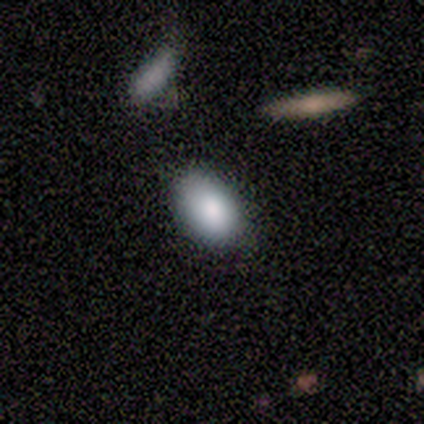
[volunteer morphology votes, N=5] smooth 100%, featured or disk 0%, star or artifact 0%. Down the decision tree: how rounded — in between (100%); merging — none (100%).